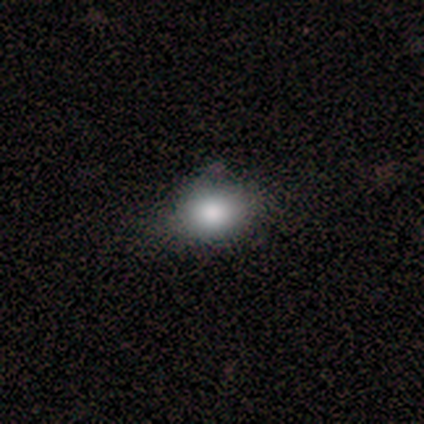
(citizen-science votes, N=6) Smooth or featured? 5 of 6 (83%) said smooth. How rounded? 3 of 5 (60%) said round. Merging? 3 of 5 (60%) said none.